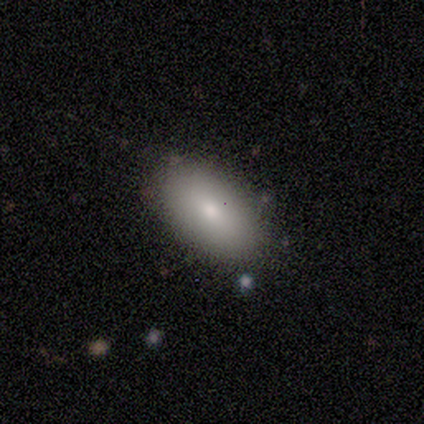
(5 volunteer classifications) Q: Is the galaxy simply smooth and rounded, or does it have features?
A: smooth — 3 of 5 (60%).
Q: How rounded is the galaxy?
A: in between — 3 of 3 (100%).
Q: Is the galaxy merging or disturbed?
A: none — 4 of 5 (80%).